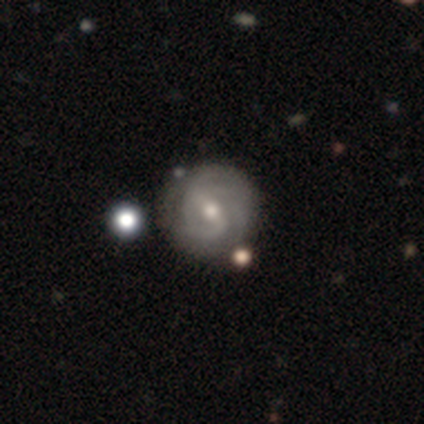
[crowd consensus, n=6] Smooth or featured: featured or disk — 100%
Edge-on disk: no — 100%
Bar: weak — 67% (strong — 17%)
Spiral arms: yes — 100%
Spiral winding: tight — 67% (medium — 33%)
Spiral arm count: 2 — 67% (can't tell — 33%)
Bulge size: moderate — 50% (tied with small — 50%)
Merging: none — 67% (major disturbance — 17%)